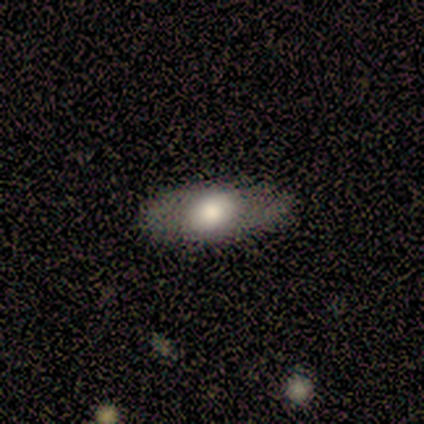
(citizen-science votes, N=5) Smooth or featured? smooth (80%)
How rounded? in between (100%)
Merging? none (60%)